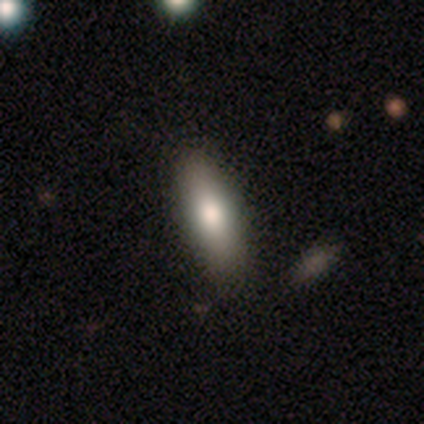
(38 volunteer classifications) Smooth or featured? 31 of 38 (82%) said smooth. How rounded? 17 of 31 (55%) said in between. Merging? 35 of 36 (97%) said none.